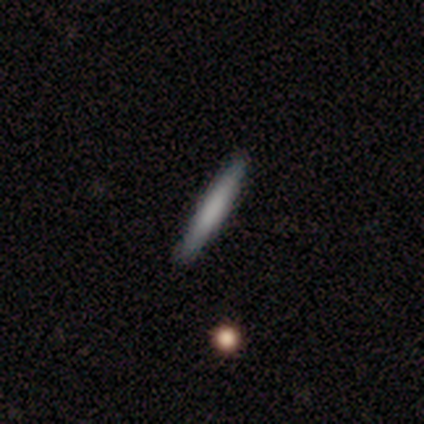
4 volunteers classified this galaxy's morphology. A smooth galaxy with no disk features (75%) that is cigar-shaped (100%).

Vote fractions:
- Smooth or featured? smooth: 75% / star or artifact: 25% / featured or disk: 0%
- How rounded? cigar-shaped: 100% / round: 0% / in between: 0%
- Merging? none: 100% / minor disturbance: 0% / major disturbance: 0% / merger: 0%